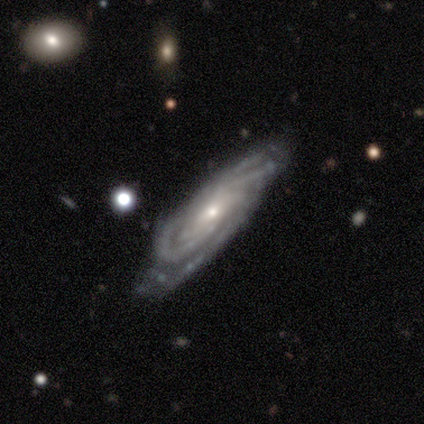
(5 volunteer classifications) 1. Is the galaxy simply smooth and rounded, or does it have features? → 100% featured or disk, 0% smooth, 0% star or artifact.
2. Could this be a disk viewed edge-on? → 100% no, 0% yes.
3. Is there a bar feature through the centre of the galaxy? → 60% no, 40% weak, 0% strong.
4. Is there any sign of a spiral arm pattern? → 100% yes, 0% no.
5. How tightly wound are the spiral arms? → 100% tight, 0% medium, 0% loose.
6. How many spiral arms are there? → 20% 2 (tied), 20% 3 (tied), 20% 4 (tied), 20% more than 4 (tied), 20% can't tell (tied), 0% 1.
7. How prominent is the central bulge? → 60% small, 40% moderate, 0% dominant, 0% large, 0% none.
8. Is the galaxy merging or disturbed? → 60% none, 40% minor disturbance, 0% major disturbance, 0% merger.